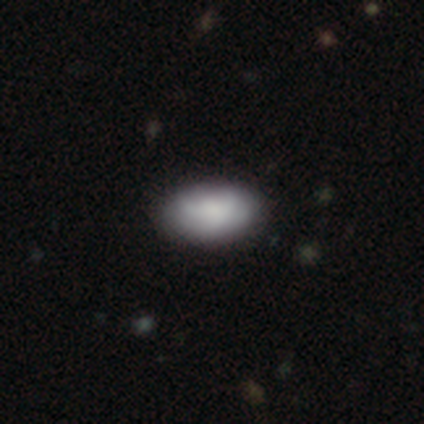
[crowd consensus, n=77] Overall: smooth (77%). How rounded: in between (92%). Merging: none (41%; minor disturbance 10%).